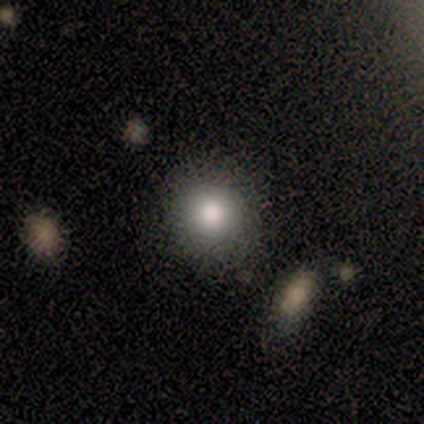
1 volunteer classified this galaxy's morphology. This is clearly a smooth galaxy (100%). How rounded: clearly round (100%). Merging: clearly merger (100%).